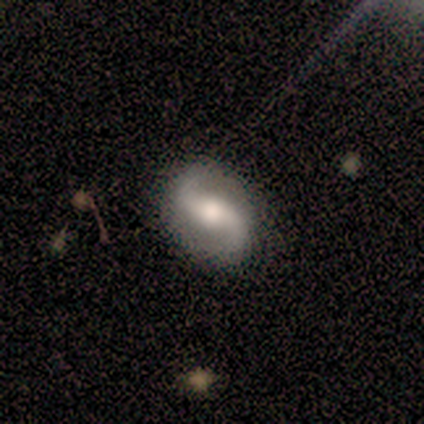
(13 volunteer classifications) Q: Smooth or featured?
A: featured or disk (92%); runner-up: star or artifact (8%)
Q: Edge-on disk?
A: no (100%)
Q: Bar?
A: strong (42%); tied with: no (42%)
Q: Spiral arms?
A: yes (100%)
Q: Spiral winding?
A: loose (75%); runner-up: medium (25%)
Q: Spiral arm count?
A: 2 (100%)
Q: Bulge size?
A: moderate (42%); runner-up: large (33%)
Q: Merging?
A: none (92%); runner-up: minor disturbance (8%)